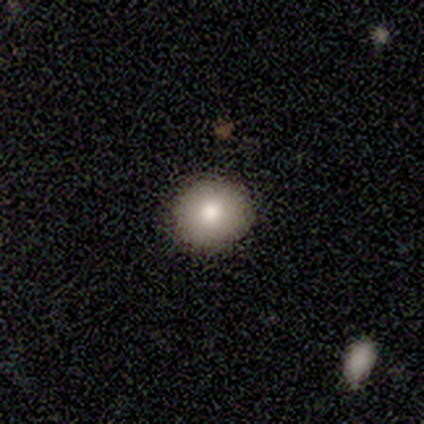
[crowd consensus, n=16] Smooth or featured: smooth — 75% (featured or disk — 19%)
How rounded: round — 100%
Merging: none — 93% (minor disturbance — 7%)